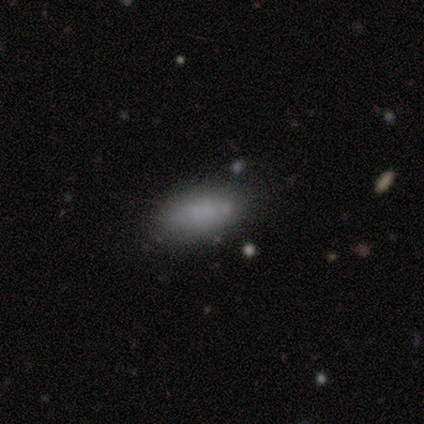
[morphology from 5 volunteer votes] A smooth galaxy with no disk features (80%) that is in between round and cigar-shaped (100%).

Vote fractions:
- Smooth or featured? smooth: 80% / featured or disk: 20% / star or artifact: 0%
- How rounded? in between: 100% / round: 0% / cigar-shaped: 0%
- Merging? none: 80% / minor disturbance: 20% / major disturbance: 0% / merger: 0%